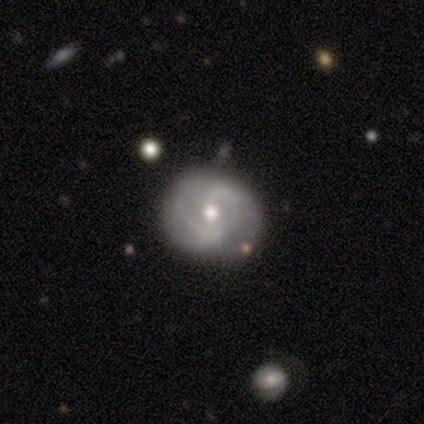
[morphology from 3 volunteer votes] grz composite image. It shows a featured or disk galaxy (67%) with a strong bar (50%, tied with no), 2 (50%, tied with can't tell) medium (100%) spiral arms (100%) and a moderate central bulge (50%, tied with small). Merging: none (67%).